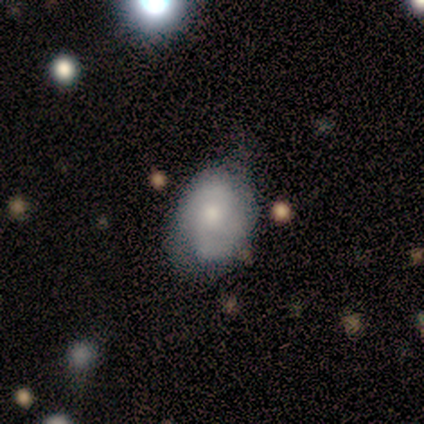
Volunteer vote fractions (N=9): Smooth or featured? smooth (67%)
How rounded? in between (83%)
Merging? none (44%, tied with minor disturbance)